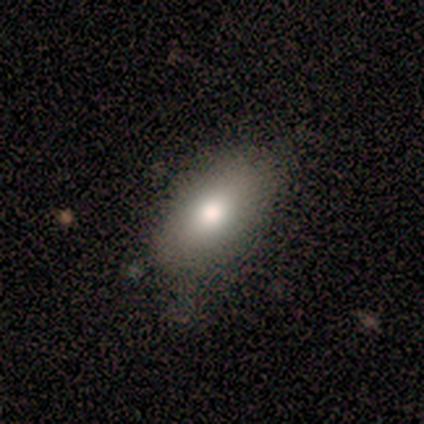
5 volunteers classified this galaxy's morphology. This appears to be a smooth galaxy with no disk features (80%) that is in between round and cigar-shaped (75%). Merging: minor disturbance (60%).